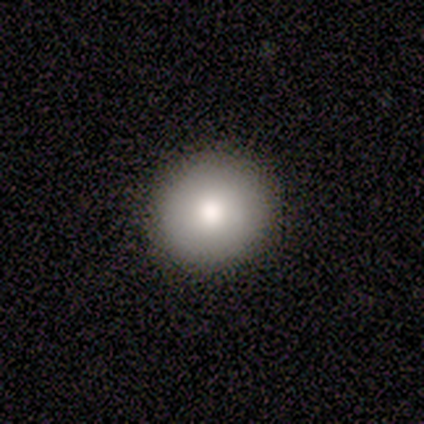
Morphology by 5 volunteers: A featured or disk galaxy (60%) with no bar (100%), no spiral arms (100%) and a moderate central bulge (67%). Merging: none (80%).